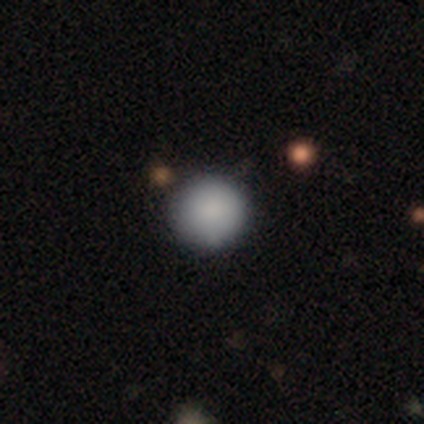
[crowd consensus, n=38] Smooth or featured: smooth — 82% (star or artifact — 13%)
How rounded: round — 97% (in between — 3%)
Merging: none — 91% (minor disturbance — 6%)